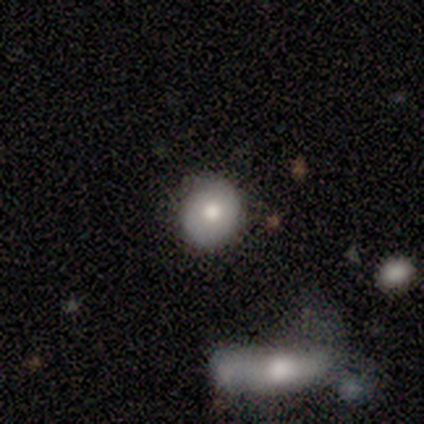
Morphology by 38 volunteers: Q: Smooth or featured?
A: smooth (68%); runner-up: featured or disk (21%)
Q: How rounded?
A: round (92%); runner-up: in between (8%)
Q: Merging?
A: none (82%); runner-up: merger (9%)